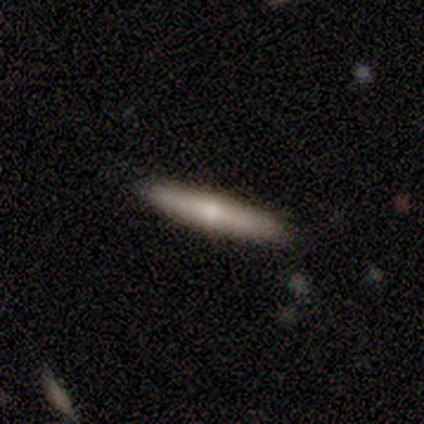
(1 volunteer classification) featured or disk 100%, smooth 0%, star or artifact 0%. Down the decision tree: edge-on disk — yes (100%); edge-on bulge — rounded (100%); merging — none (100%).